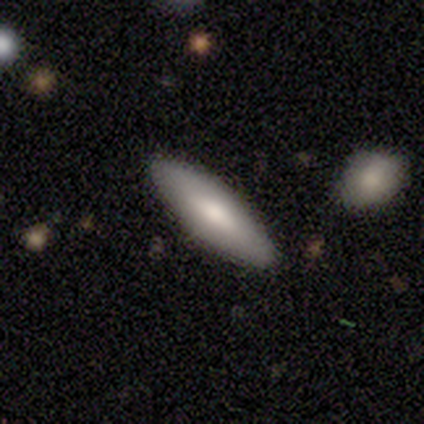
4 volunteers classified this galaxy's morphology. Smooth or featured?
  - smooth: 100% *
  - featured or disk: 0%
  - star or artifact: 0%
How rounded?
  - in between: 100% *
  - round: 0%
  - cigar-shaped: 0%
Merging?
  - none: 75% *
  - minor disturbance: 25%
  - major disturbance: 0%
  - merger: 0%